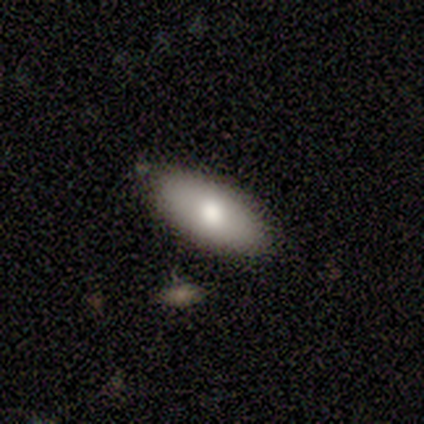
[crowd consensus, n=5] Overall: smooth (40%, tied with featured or disk). How rounded: in between (50%, tied with cigar-shaped). Merging: none (75%).